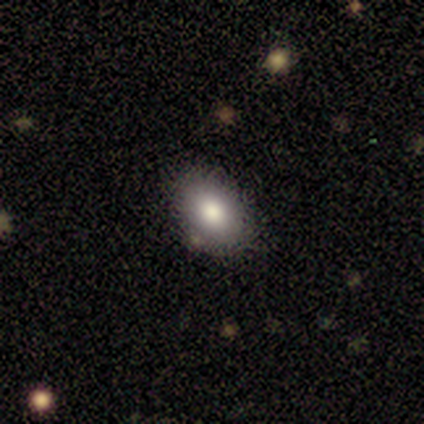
smooth_or_featured: smooth (p=1.00)
how_rounded: in between (p=0.80) [alt: round p=0.20]
merging: none (p=0.80) [alt: minor disturbance p=0.20]